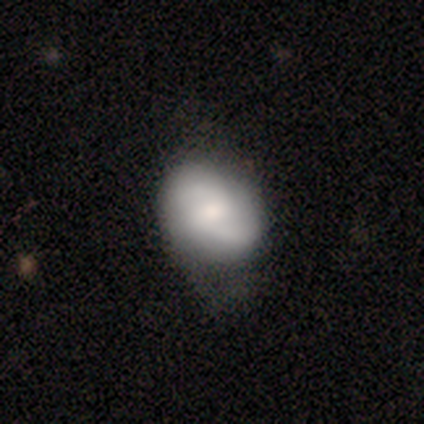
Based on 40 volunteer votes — Morphology: type=smooth (48%, tied with featured or disk); roundness=in between (74%); merging=none (47%).